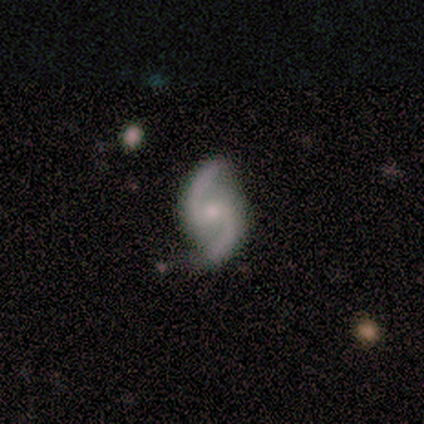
This appears to be a featured or disk galaxy (80%) with no bar (75%), 2 (67%) medium (67%) spiral arms (75%) and a small central bulge (50%). Merging: none (100%).